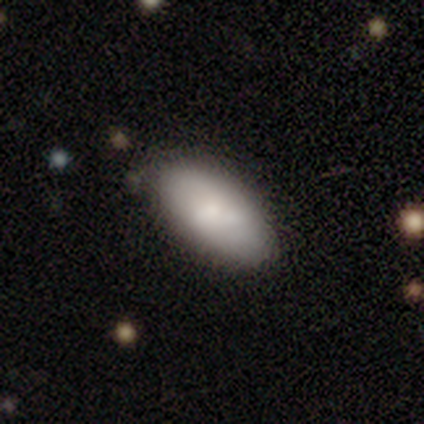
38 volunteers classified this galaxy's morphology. smooth 68%, featured or disk 26%, star or artifact 5%. Down the decision tree: how rounded — in between (100%); merging — none (50%).